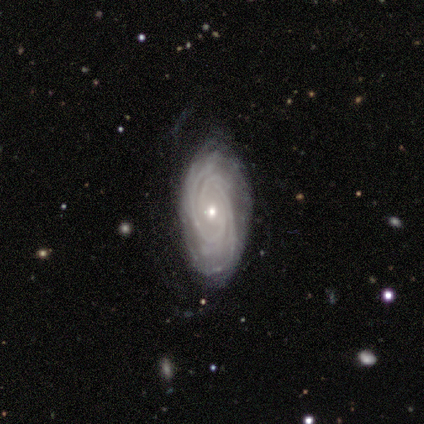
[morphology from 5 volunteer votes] Overall: featured or disk (100%). Edge-on disk: no (100%). Bar: no (60%; strong 40%). Spiral arms: yes (100%). Spiral arm count: 2 (20%, tied with 3, 4, more than 4 and can't tell). Spiral winding: tight (100%). Bulge size: small (60%; moderate 20%). Merging: none (100%).